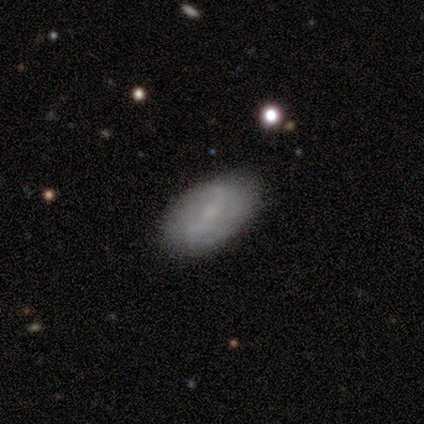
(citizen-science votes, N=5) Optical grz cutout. It shows a smooth galaxy with no disk features (60%) that is in between round and cigar-shaped (100%). Merging: none (75%).